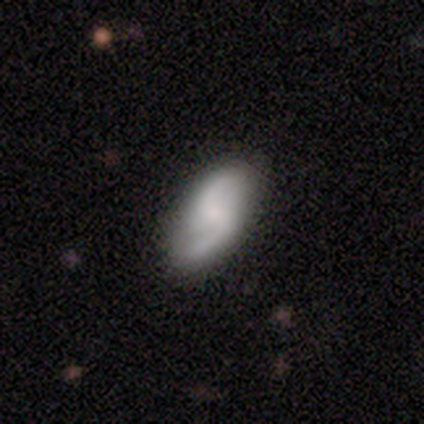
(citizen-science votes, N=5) Smooth or featured? 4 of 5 (80%) said featured or disk. Edge-on disk? 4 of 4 (100%) said no. Bar? 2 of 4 (50%, tied with no) said weak. Spiral arms? 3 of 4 (75%) said yes. Spiral winding? 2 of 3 (67%) said loose. Spiral arm count? 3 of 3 (100%) said 2. Bulge size? 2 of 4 (50%) said moderate. Merging? 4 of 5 (80%) said none.